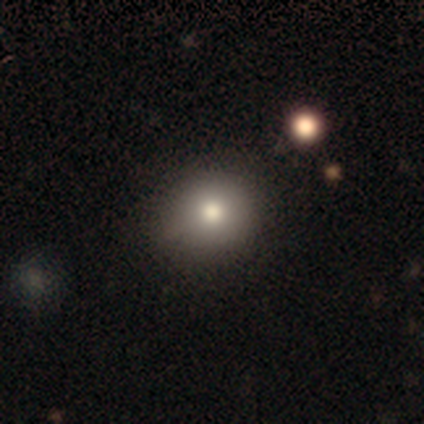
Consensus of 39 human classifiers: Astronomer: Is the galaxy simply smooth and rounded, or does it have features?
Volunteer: smooth — 72%.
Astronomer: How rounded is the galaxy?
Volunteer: round — 82%.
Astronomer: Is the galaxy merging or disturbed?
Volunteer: none — 74%.